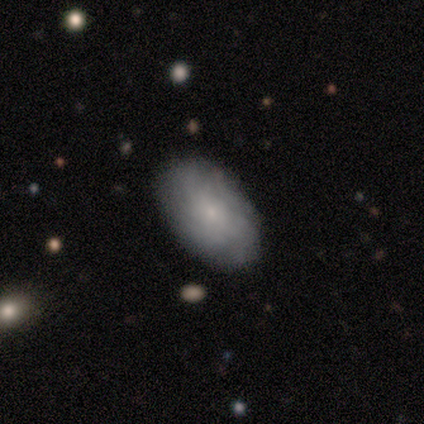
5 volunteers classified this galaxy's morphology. Smooth or featured: smooth — 60% (featured or disk — 20%)
How rounded: in between — 100%
Merging: none — 75% (minor disturbance — 25%)